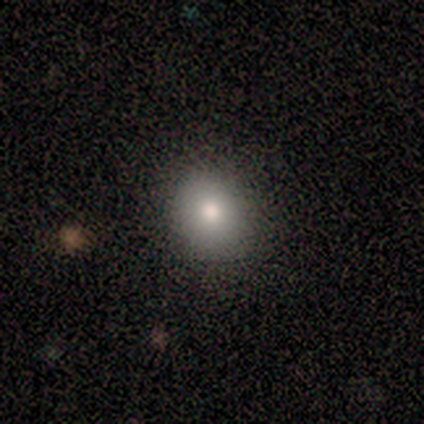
Smooth or featured? 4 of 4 (100%) said smooth. How rounded? 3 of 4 (75%) said round. Merging? 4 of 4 (100%) said none.